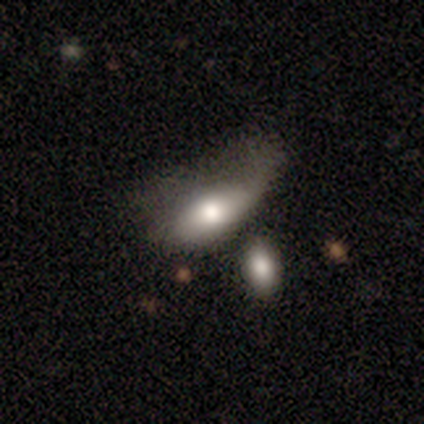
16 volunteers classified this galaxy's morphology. Smooth or featured: smooth — 69% (featured or disk — 19%)
How rounded: in between — 100%
Merging: major disturbance — 57% (minor disturbance — 21%)